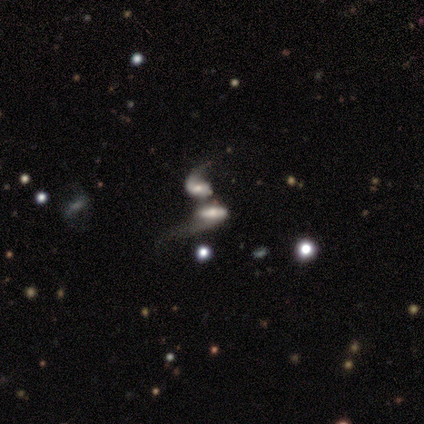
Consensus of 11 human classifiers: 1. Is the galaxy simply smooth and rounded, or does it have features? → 91% featured or disk, 9% smooth, 0% star or artifact.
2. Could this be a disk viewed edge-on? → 90% no, 10% yes.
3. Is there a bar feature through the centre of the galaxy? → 67% no, 33% weak, 0% strong.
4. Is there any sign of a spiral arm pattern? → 78% yes, 22% no.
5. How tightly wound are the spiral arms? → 57% loose, 29% tight, 14% medium.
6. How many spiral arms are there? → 71% 1, 14% 2, 14% can't tell, 0% 3, 0% 4, 0% more than 4.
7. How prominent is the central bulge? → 44% moderate, 22% small, 22% none, 11% large, 0% dominant.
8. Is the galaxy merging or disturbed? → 91% merger, 9% none, 0% minor disturbance, 0% major disturbance.